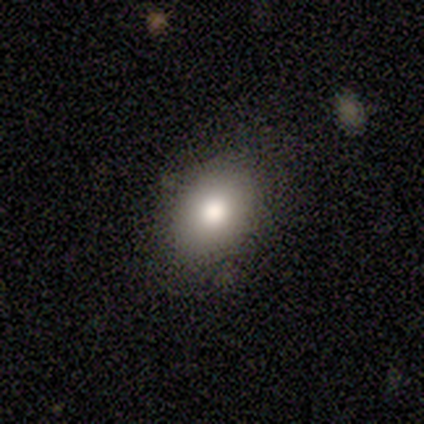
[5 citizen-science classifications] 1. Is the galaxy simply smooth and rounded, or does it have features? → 100% smooth, 0% featured or disk, 0% star or artifact.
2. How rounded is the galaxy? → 60% in between, 40% round, 0% cigar-shaped.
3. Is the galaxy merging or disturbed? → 100% none, 0% minor disturbance, 0% major disturbance, 0% merger.